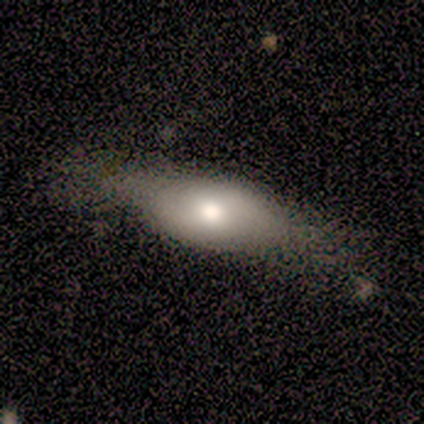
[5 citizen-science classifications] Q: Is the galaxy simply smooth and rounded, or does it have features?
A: smooth — 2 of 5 (40%, tied with featured or disk).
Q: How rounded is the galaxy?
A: in between — 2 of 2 (100%).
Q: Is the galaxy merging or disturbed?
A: none — 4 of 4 (100%).